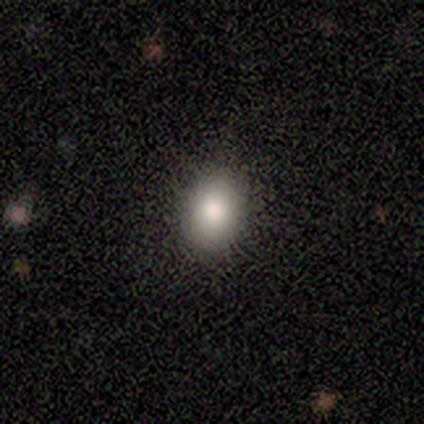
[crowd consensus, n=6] Smooth or featured? 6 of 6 (100%) said smooth. How rounded? 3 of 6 (50%, tied with in between) said round. Merging? 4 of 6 (67%) said none.